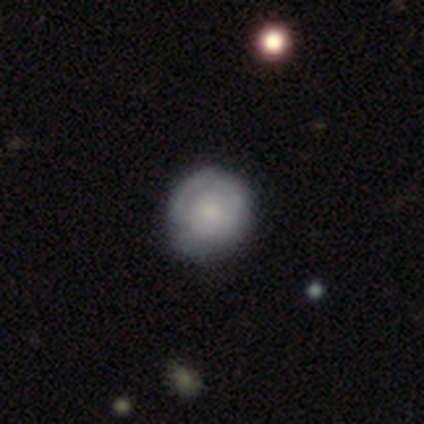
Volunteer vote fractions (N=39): This appears to be a featured or disk galaxy (56%) with no bar (91%), 1 (44%) tight (72%) spiral arms (82%) and a small central bulge (55%). Merging: none (59%).